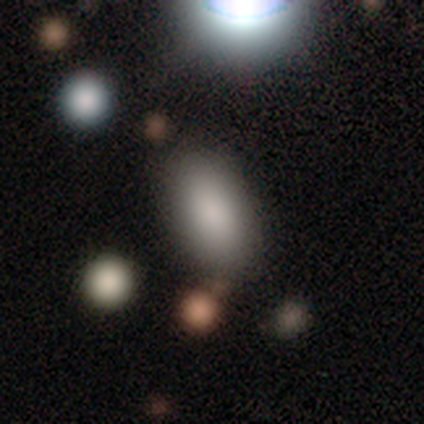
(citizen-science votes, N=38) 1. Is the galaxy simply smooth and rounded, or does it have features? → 89% smooth, 8% featured or disk, 3% star or artifact.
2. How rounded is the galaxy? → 94% in between, 3% round, 3% cigar-shaped.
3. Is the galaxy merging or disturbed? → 76% none, 19% minor disturbance, 5% merger, 0% major disturbance.